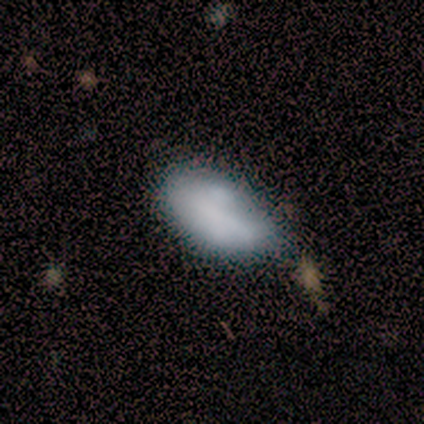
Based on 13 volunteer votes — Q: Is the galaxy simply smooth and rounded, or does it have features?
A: smooth — 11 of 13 (85%).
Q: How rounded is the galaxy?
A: in between — 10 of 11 (91%).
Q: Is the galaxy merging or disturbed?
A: none — 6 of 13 (46%, tied with minor disturbance).